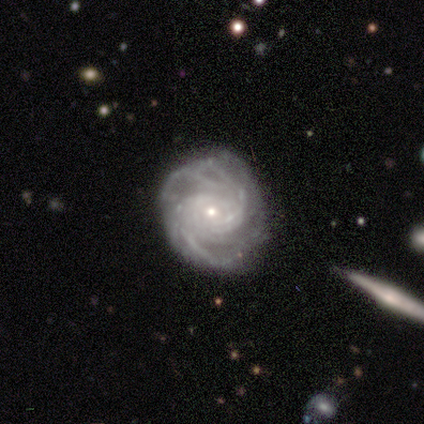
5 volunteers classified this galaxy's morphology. smooth_or_featured: featured or disk (p=0.80) [alt: smooth p=0.20]
disk_edge_on: no (p=1.00)
bar: weak (p=0.50) [tied with: no p=0.50]
has_spiral_arms: yes (p=1.00)
spiral_winding: medium (p=0.75) [alt: tight p=0.25]
spiral_arm_count: 4 (p=0.50) [alt: more than 4 p=0.25]
bulge_size: small (p=1.00)
merging: none (p=0.80) [alt: minor disturbance p=0.20]